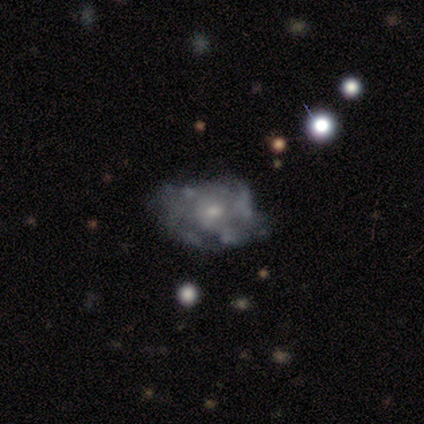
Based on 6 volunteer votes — Volunteers were most divided on "spiral arms" (2-way tie): yes: 50%, no: 50%; "spiral winding" (2-way tie): tight: 50%, medium: 50%, loose: 0%. More confident: edge-on disk — no (100%); bar — no (100%); spiral arm count — can't tell (100%); merging — none (83%); bulge size — small (75%); smooth or featured — featured or disk (67%).